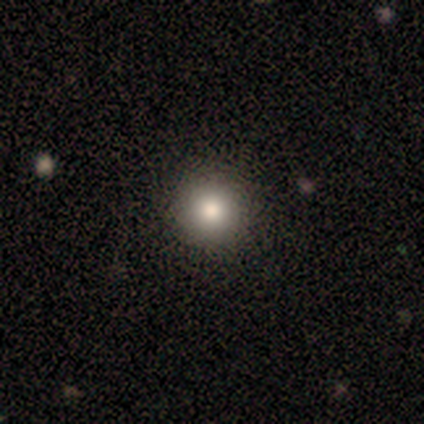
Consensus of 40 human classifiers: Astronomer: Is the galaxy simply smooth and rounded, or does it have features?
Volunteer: smooth — 75%.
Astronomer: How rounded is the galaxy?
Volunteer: round — 100%.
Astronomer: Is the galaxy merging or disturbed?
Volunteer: none — 65%.